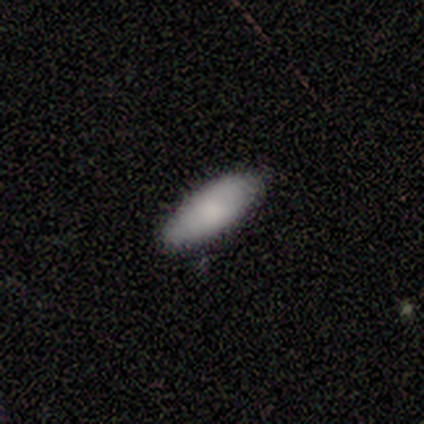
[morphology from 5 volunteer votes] Smooth or featured: smooth — 100%
How rounded: in between — 100%
Merging: none — 60% (minor disturbance — 40%)